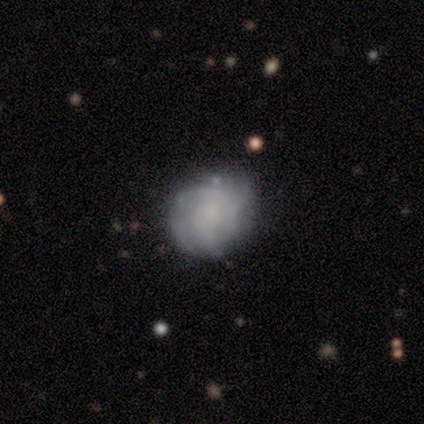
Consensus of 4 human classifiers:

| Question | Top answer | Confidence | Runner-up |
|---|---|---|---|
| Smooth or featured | smooth | 75% | featured or disk (25%) |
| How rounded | round | 100% | — |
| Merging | none | 100% | — |